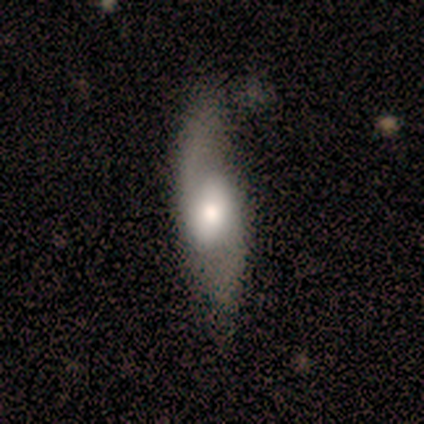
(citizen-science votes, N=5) A featured or disk galaxy (80%) with a weak bar (75%), 2 (75%) loose (75%) spiral arms (100%) and a moderate central bulge (50%). Merging: none (60%).